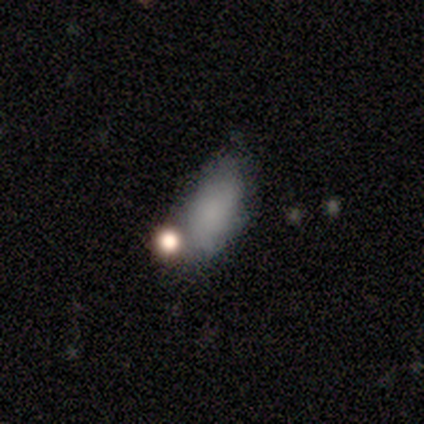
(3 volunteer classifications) Overall: featured or disk (67%; smooth 33%). Edge-on disk: no (100%). Bar: no (100%). Spiral arms: no (100%). Bulge size: small (50%, tied with none). Merging: none (33%, tied with minor disturbance and major disturbance).